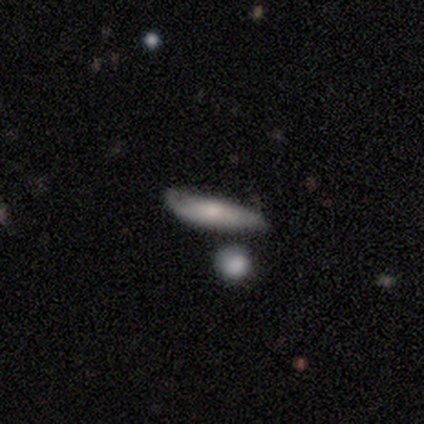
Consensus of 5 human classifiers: A smooth galaxy with no disk features (100%) that is cigar-shaped (80%). Merging: none (80%).